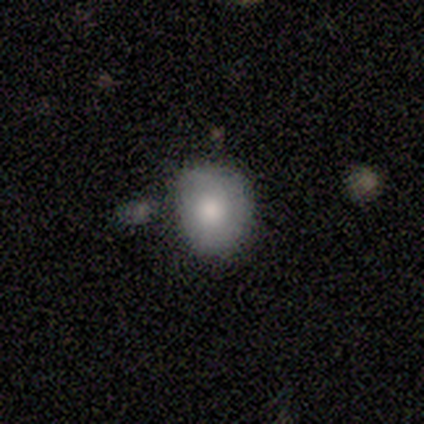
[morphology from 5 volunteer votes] Smooth or featured?
  - smooth: 80% *
  - featured or disk: 20%
  - star or artifact: 0%
How rounded?
  - round: 100% *
  - in between: 0%
  - cigar-shaped: 0%
Merging?
  - none: 60% *
  - minor disturbance: 20%
  - merger: 20%
  - major disturbance: 0%